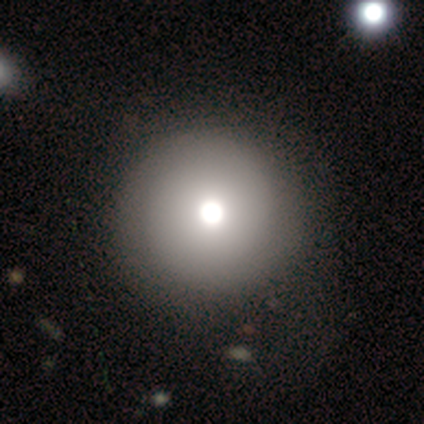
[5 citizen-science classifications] smooth_or_featured: smooth (p=0.80) [alt: featured or disk p=0.20]
how_rounded: round (p=0.75) [alt: in between p=0.25]
merging: none (p=0.80) [alt: minor disturbance p=0.20]